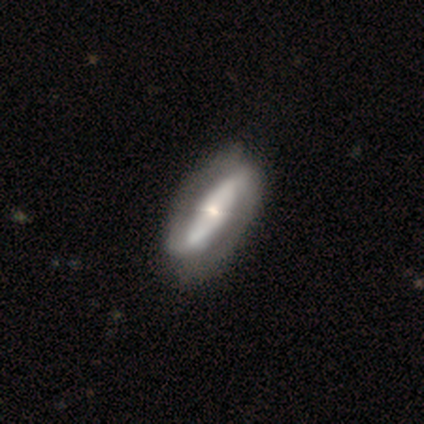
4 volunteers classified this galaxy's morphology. smooth_or_featured: featured or disk (p=1.00)
disk_edge_on: no (p=1.00)
bar: strong (p=0.50) [alt: weak p=0.25]
has_spiral_arms: yes (p=0.75) [alt: no p=0.25]
spiral_winding: tight (p=0.67) [alt: medium p=0.33]
spiral_arm_count: 2 (p=1.00)
bulge_size: large (p=0.50) [alt: moderate p=0.25]
merging: none (p=1.00)